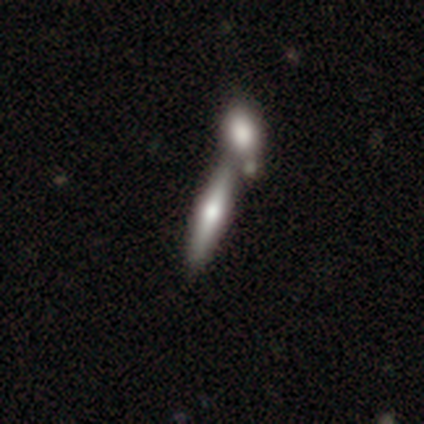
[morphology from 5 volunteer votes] Smooth or featured? smooth (80%)
How rounded? cigar-shaped (75%)
Merging? merger (80%)